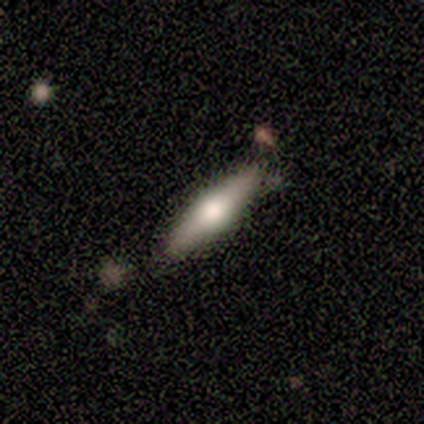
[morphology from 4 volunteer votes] Smooth or featured? 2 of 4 (50%) said smooth. How rounded? 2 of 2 (100%) said cigar-shaped. Merging? 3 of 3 (100%) said none.